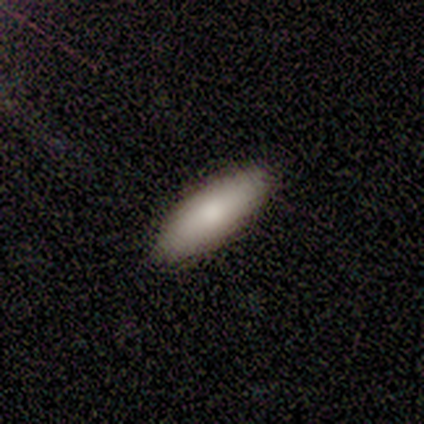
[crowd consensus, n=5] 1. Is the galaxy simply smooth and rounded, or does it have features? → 100% smooth, 0% featured or disk, 0% star or artifact.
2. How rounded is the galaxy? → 60% cigar-shaped, 40% in between, 0% round.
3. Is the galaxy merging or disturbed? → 100% none, 0% minor disturbance, 0% major disturbance, 0% merger.